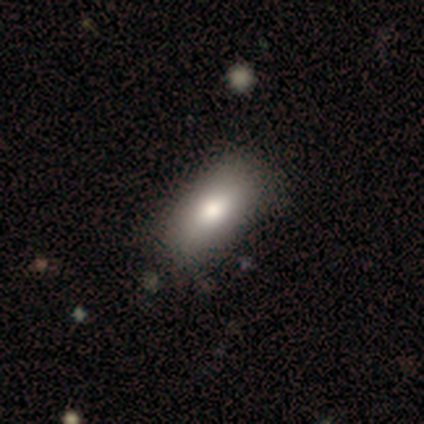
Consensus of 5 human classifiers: This appears to be a smooth galaxy with no disk features (100%) that is in between round and cigar-shaped (100%). Merging: none (60%).